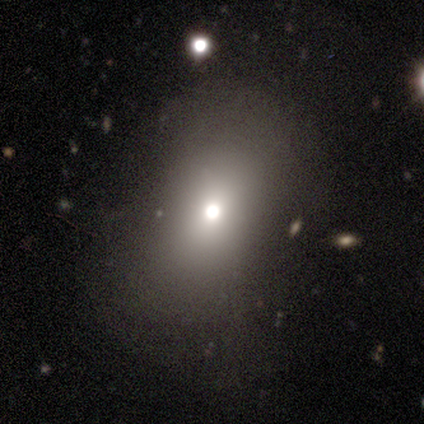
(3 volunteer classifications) Smooth or featured? star or artifact (67%)